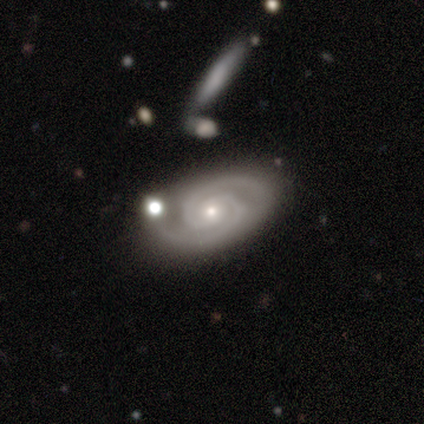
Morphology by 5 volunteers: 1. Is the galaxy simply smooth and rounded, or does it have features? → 100% featured or disk, 0% smooth, 0% star or artifact.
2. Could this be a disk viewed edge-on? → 100% no, 0% yes.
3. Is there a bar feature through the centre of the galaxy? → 60% no, 40% weak, 0% strong.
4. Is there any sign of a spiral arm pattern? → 100% yes, 0% no.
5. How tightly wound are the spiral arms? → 80% tight, 20% medium, 0% loose.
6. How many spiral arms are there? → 100% 2, 0% 1, 0% 3, 0% 4, 0% more than 4, 0% can't tell.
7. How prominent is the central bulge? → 100% small, 0% dominant, 0% large, 0% moderate, 0% none.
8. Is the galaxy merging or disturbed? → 40% none (tied), 40% minor disturbance (tied), 20% merger, 0% major disturbance.